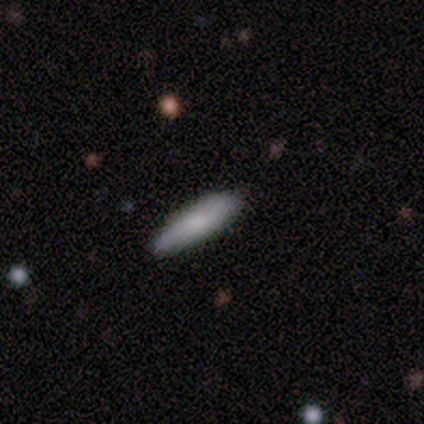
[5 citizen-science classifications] smooth 80%, featured or disk 20%, star or artifact 0%. Down the decision tree: how rounded — cigar-shaped (100%); merging — none (60%).